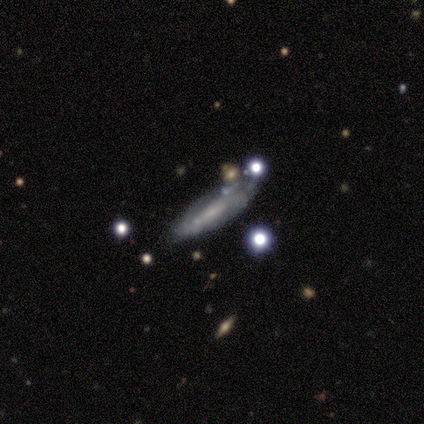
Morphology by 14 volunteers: Q: Smooth or featured?
A: featured or disk (79%); runner-up: smooth (21%)
Q: Edge-on disk?
A: yes (55%); runner-up: no (45%)
Q: Edge-on bulge?
A: none (67%); runner-up: boxy (17%)
Q: Merging?
A: none (64%); runner-up: minor disturbance (29%)